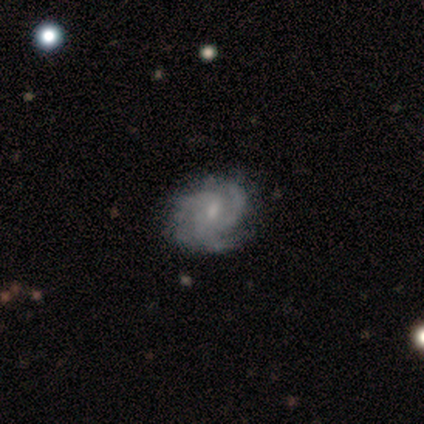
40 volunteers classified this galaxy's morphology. Smooth or featured? featured or disk (88%)
Edge-on disk? no (100%)
Bar? no (57%)
Spiral arms? yes (100%)
Spiral winding? medium (49%)
Spiral arm count? 3 (69%)
Bulge size? small (66%)
Merging? none (45%)